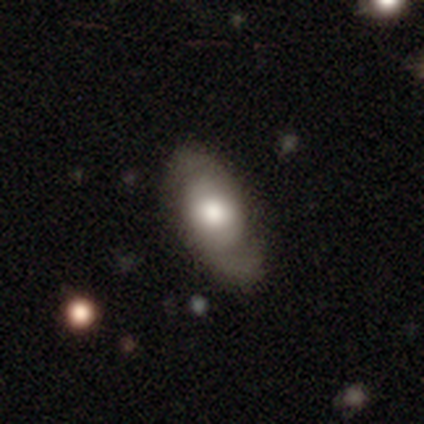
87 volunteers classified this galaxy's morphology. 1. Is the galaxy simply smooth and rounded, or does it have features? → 51% featured or disk, 44% smooth, 6% star or artifact.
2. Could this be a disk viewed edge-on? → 89% no, 11% yes.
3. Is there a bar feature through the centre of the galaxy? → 79% no, 18% weak, 3% strong.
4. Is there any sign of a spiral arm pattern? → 79% yes, 21% no.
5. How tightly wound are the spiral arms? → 48% loose, 35% medium, 16% tight.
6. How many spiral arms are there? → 90% 2, 10% can't tell, 0% 1, 0% 3, 0% 4, 0% more than 4.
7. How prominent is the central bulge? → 44% large, 36% moderate, 10% dominant, 8% small, 3% none.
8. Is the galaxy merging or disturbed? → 56% none, 28% minor disturbance, 12% major disturbance, 4% merger.